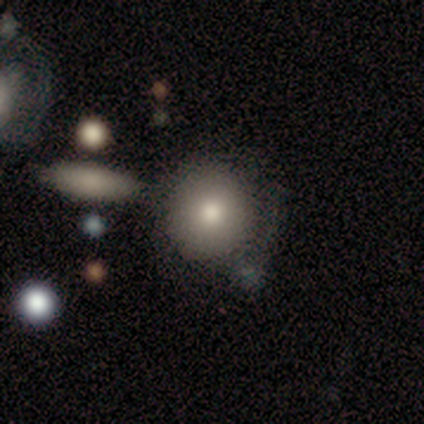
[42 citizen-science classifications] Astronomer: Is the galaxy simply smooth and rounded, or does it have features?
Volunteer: smooth — 83%.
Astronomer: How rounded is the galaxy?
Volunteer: round — 91%.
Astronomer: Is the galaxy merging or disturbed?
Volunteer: none — 55%.